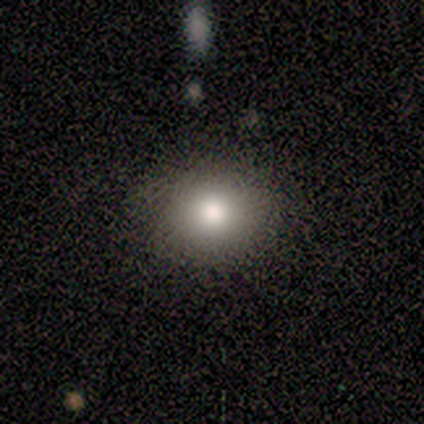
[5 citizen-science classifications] Smooth or featured?
  - smooth: 80% *
  - star or artifact: 20%
  - featured or disk: 0%
How rounded?
  - round: 75% *
  - in between: 25%
  - cigar-shaped: 0%
Merging?
  - none: 75% *
  - minor disturbance: 25%
  - major disturbance: 0%
  - merger: 0%